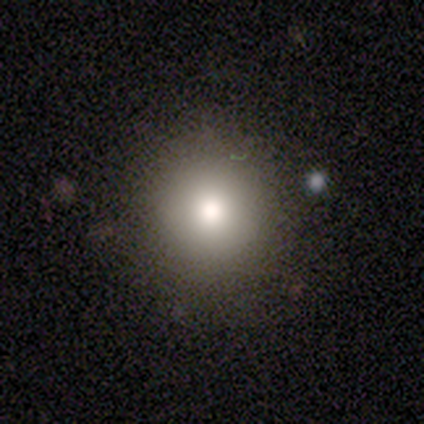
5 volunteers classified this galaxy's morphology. smooth-or-featured: smooth: 80% | star or artifact: 20% | featured or disk: 0%
  how-rounded: round: 100% | in between: 0% | cigar-shaped: 0%
  merging: none: 100% | minor disturbance: 0% | major disturbance: 0% | merger: 0%